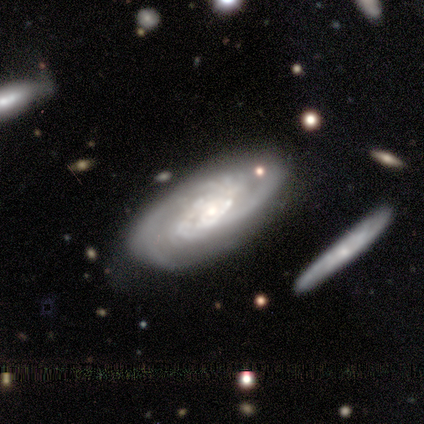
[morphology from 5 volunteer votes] Smooth or featured: featured or disk — 80% (smooth — 20%)
Edge-on disk: no — 100%
Bar: no — 100%
Spiral arms: yes — 100%
Spiral winding: tight — 75% (medium — 25%)
Spiral arm count: can't tell — 100%
Bulge size: small — 75% (none — 25%)
Merging: none — 60% (minor disturbance — 40%)